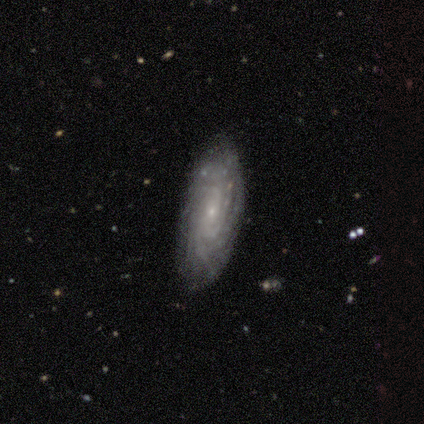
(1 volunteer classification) A featured or disk galaxy (100%) with a weak bar (100%), tight (100%) spiral arms (100%) and a small central bulge (100%).

Vote fractions:
- Smooth or featured? featured or disk: 100% / smooth: 0% / star or artifact: 0%
- Edge-on disk? no: 100% / yes: 0%
- Bar? weak: 100% / strong: 0% / no: 0%
- Spiral arms? yes: 100% / no: 0%
- Spiral winding? tight: 100% / medium: 0% / loose: 0%
- Spiral arm count? can't tell: 100% / 1: 0% / 2: 0% / 3: 0% / 4: 0% / more than 4: 0%
- Bulge size? small: 100% / dominant: 0% / large: 0% / moderate: 0% / none: 0%
- Merging? none: 100% / minor disturbance: 0% / major disturbance: 0% / merger: 0%